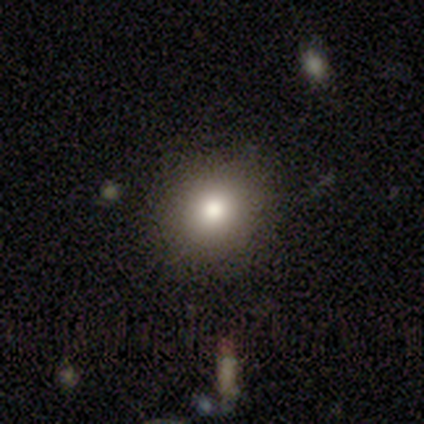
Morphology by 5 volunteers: Smooth or featured?
  - smooth: 100% *
  - featured or disk: 0%
  - star or artifact: 0%
How rounded?
  - round: 60% *
  - in between: 40%
  - cigar-shaped: 0%
Merging?
  - none: 80% *
  - major disturbance: 20%
  - minor disturbance: 0%
  - merger: 0%